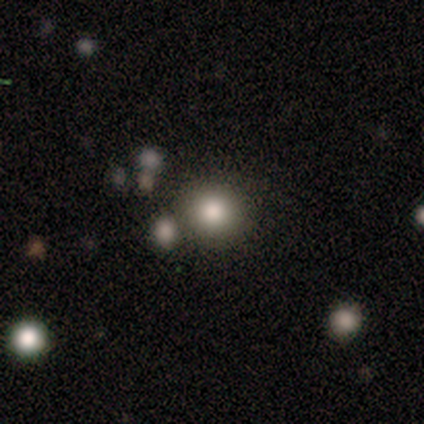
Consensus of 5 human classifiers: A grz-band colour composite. It shows a smooth galaxy with no disk features (60%) that is round (100%). Merging: none (67%).